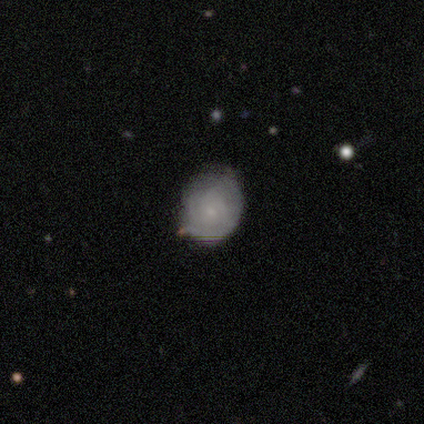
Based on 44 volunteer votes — Smooth or featured?
  - featured or disk: 50% *
  - smooth: 45%
  - star or artifact: 5%
Edge-on disk?
  - no: 95% *
  - yes: 5%
Bar?
  - no: 95% *
  - weak: 5%
  - strong: 0%
Spiral arms?
  - yes: 81% *
  - no: 19%
Spiral winding?
  - tight: 82% *
  - medium: 18%
  - loose: 0%
Spiral arm count?
  - can't tell: 59% *
  - 3: 24%
  - 2: 18%
  - 1: 0%
  - 4: 0%
  - more than 4: 0%
Bulge size?
  - small: 86% *
  - none: 10%
  - moderate: 5%
  - dominant: 0%
  - large: 0%
Merging?
  - minor disturbance: 48% *
  - none: 45%
  - major disturbance: 7%
  - merger: 0%